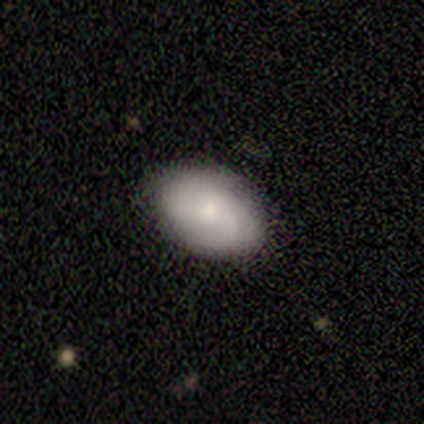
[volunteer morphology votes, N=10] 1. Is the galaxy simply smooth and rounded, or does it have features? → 50% smooth, 40% featured or disk, 10% star or artifact.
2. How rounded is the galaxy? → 80% in between, 20% round, 0% cigar-shaped.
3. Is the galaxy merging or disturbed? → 78% none, 22% minor disturbance, 0% major disturbance, 0% merger.